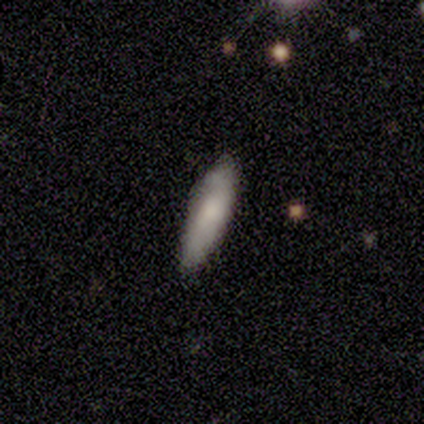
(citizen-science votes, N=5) This appears to be a smooth galaxy with no disk features (80%) that is in between round and cigar-shaped (75%). Merging: none (80%).